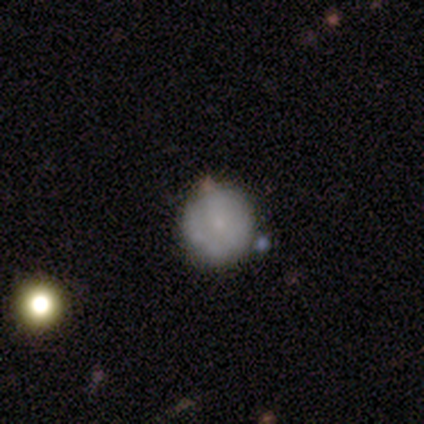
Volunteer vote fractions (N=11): A smooth galaxy with no disk features (64%) that is round (86%).

Vote fractions:
- Smooth or featured? smooth: 64% / featured or disk: 27% / star or artifact: 9%
- How rounded? round: 86% / in between: 14% / cigar-shaped: 0%
- Merging? none: 70% / minor disturbance: 30% / major disturbance: 0% / merger: 0%